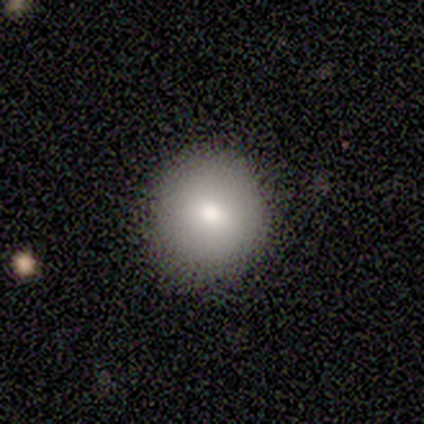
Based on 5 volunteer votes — smooth 80%, featured or disk 20%, star or artifact 0%. Down the decision tree: how rounded — round (75%); merging — none (60%).